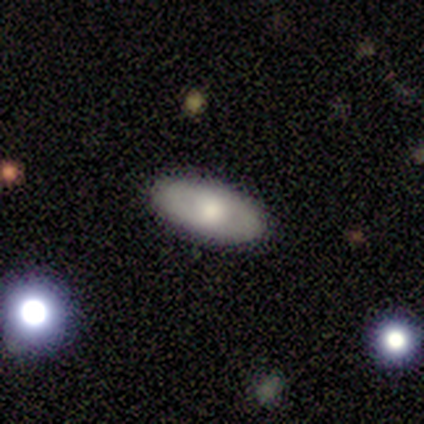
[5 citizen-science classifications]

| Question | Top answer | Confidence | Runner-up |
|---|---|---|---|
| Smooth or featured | smooth | 60% | featured or disk (20%) |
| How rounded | in between | 100% | — |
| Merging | none | 100% | — |